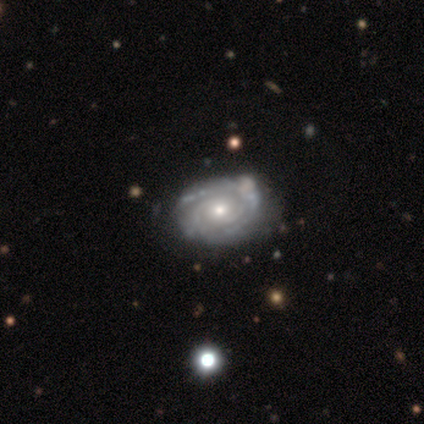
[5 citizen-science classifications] featured or disk 100%, smooth 0%, star or artifact 0%. Down the decision tree: edge-on disk — no (100%); bar — no (80%); spiral arms — yes (100%); spiral arm count — 2 (40%, tied with can't tell); spiral winding — medium (60%); bulge size — small (60%); merging — none (60%).